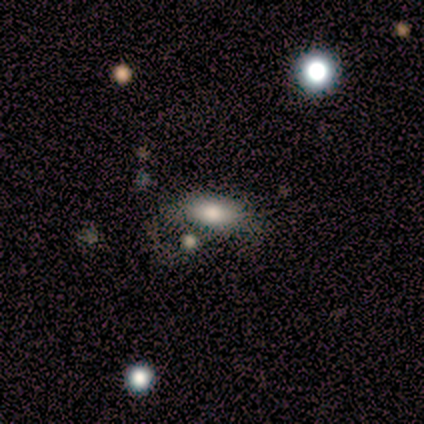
Q: Smooth or featured?
A: smooth (60%); runner-up: featured or disk (40%)
Q: How rounded?
A: in between (100%)
Q: Merging?
A: none (60%); runner-up: minor disturbance (20%)